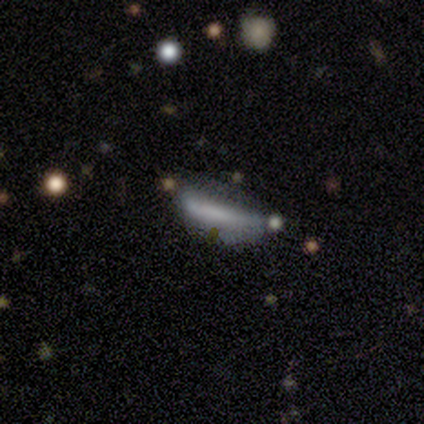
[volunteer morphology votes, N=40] Smooth or featured? smooth (48%)
How rounded? cigar-shaped (63%)
Merging? none (46%)